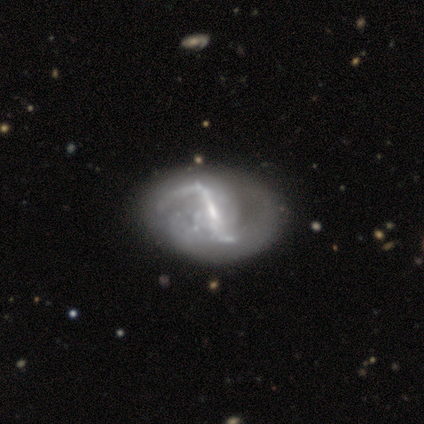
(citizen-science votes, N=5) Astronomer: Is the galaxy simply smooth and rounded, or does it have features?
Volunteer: featured or disk — 80%.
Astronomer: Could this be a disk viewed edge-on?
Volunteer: no — 75%.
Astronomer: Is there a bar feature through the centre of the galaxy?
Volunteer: strong — 100%.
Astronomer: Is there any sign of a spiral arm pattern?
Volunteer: yes — 100%.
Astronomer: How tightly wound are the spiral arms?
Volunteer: loose — 67%.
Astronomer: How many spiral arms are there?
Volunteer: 2 — 100%.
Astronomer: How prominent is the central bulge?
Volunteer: small — 67%.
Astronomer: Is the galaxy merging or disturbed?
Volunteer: none — 80%.